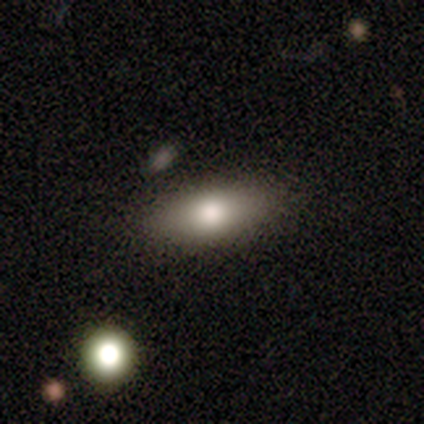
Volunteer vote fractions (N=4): Smooth or featured: smooth — 100%
How rounded: in between — 50% (round — 25%)
Merging: none — 75% (minor disturbance — 25%)